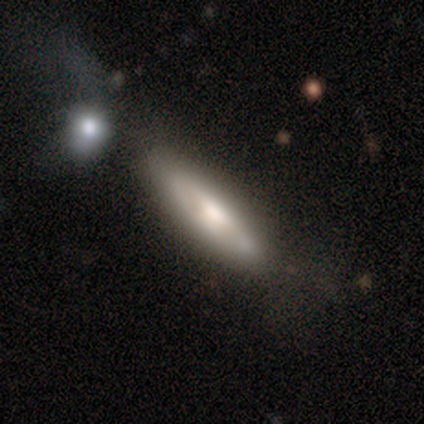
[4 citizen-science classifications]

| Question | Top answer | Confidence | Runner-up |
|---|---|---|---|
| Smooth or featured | featured or disk | 100% | — |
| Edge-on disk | yes | 100% | — |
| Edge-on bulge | rounded | 75% | none (25%) |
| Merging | none | 50% | tied: minor disturbance (50%) |